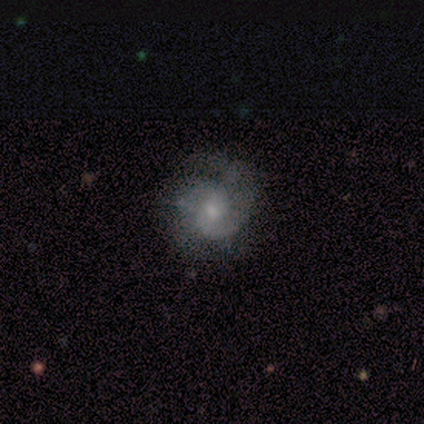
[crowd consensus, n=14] This is likely a featured or disk galaxy (79%). It is clearly not viewed edge-on (91%). Bar: possibly no (50%). Spiral arm pattern: clearly yes (100%). Spiral arm count: possibly 2 (50%). Spiral winding: clearly medium (80%). Central bulge: likely small (60%). Merging: possibly minor disturbance (46%).